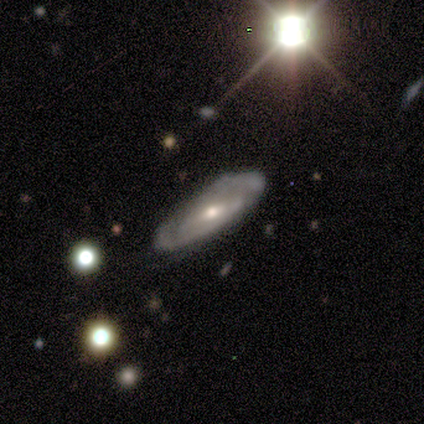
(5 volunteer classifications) Smooth or featured? 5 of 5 (100%) said featured or disk. Edge-on disk? 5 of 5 (100%) said no. Bar? 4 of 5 (80%) said weak. Spiral arms? 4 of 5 (80%) said yes. Spiral winding? 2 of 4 (50%, tied with medium) said tight. Spiral arm count? 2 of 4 (50%, tied with can't tell) said 2. Bulge size? 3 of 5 (60%) said small. Merging? 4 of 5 (80%) said none.